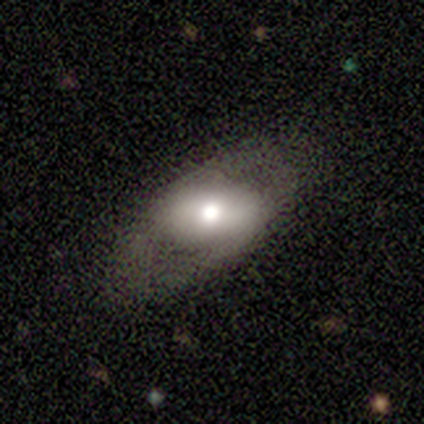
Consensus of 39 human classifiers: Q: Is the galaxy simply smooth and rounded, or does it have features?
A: featured or disk — 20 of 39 (51%).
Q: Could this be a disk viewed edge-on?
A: no — 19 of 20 (95%).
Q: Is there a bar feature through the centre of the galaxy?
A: strong — 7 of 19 (37%).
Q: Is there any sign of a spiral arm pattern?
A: no — 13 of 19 (68%).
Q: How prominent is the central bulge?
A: moderate — 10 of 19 (53%).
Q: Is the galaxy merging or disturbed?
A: none — 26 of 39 (67%).